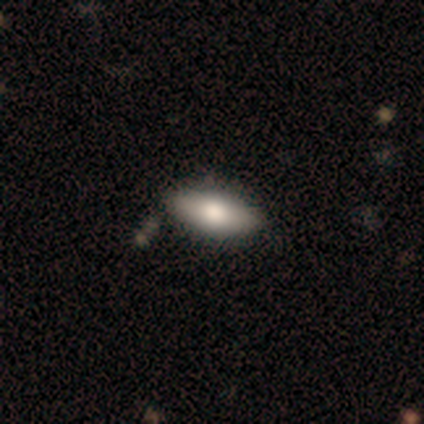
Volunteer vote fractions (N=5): A smooth galaxy with no disk features (80%) that is in between round and cigar-shaped (100%). Merging: none (100%).